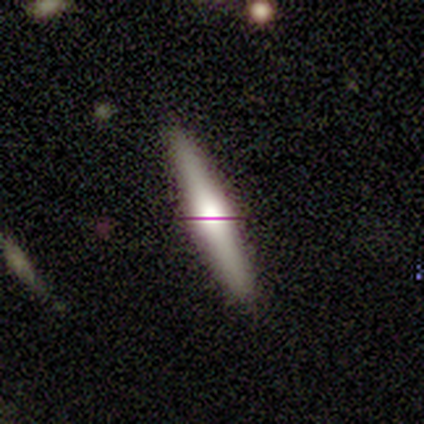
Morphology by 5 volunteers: Overall: featured or disk (80%). Edge-on disk: yes (100%). Edge-on bulge: rounded (75%). Merging: none (100%).